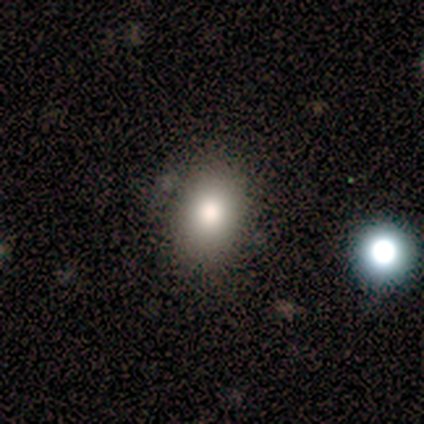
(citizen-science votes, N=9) Volunteers were most divided on "how rounded": in between: 50%, round: 38%, cigar-shaped: 12%. More confident: smooth or featured — smooth (89%); merging — none (67%).